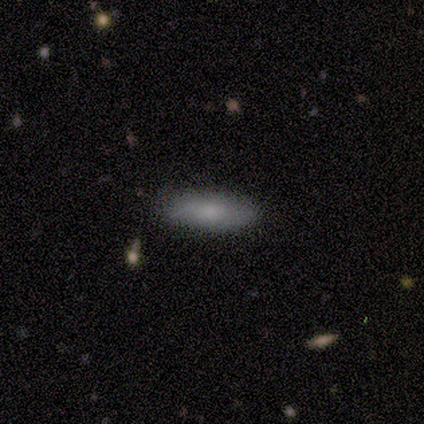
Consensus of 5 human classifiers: A smooth galaxy with no disk features (100%) that is in between round and cigar-shaped (60%).

Vote fractions:
- Smooth or featured? smooth: 100% / featured or disk: 0% / star or artifact: 0%
- How rounded? in between: 60% / cigar-shaped: 40% / round: 0%
- Merging? none: 100% / minor disturbance: 0% / major disturbance: 0% / merger: 0%